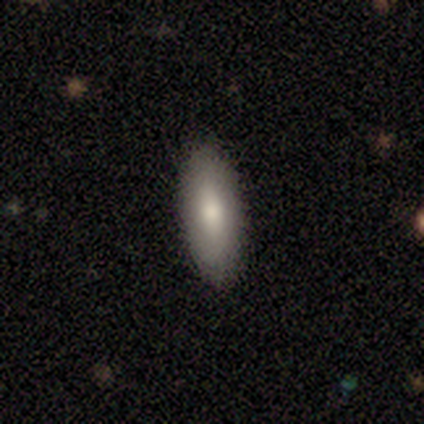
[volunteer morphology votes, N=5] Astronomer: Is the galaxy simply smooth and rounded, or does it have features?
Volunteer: smooth — 80%.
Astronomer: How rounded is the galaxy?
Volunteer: cigar-shaped — 75%.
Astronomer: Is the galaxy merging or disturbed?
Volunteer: none — 100%.